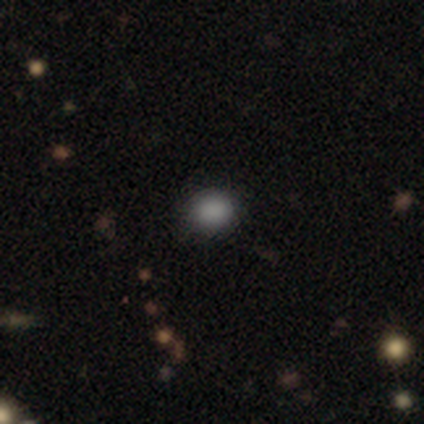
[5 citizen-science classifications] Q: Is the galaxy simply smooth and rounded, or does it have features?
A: smooth — 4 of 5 (80%).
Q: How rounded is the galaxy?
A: round — 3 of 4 (75%).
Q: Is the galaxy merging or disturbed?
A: none — 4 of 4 (100%).